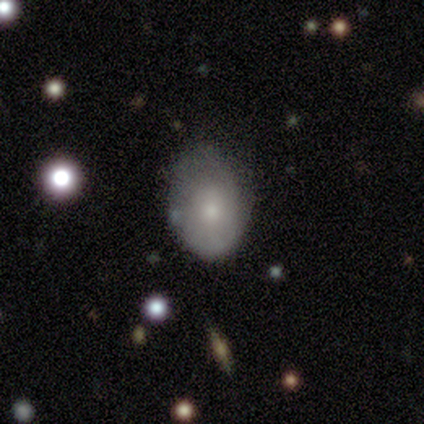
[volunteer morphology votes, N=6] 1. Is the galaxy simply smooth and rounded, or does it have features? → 67% smooth, 33% featured or disk, 0% star or artifact.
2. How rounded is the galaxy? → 75% in between, 25% round, 0% cigar-shaped.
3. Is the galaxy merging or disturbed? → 67% minor disturbance, 33% none, 0% major disturbance, 0% merger.